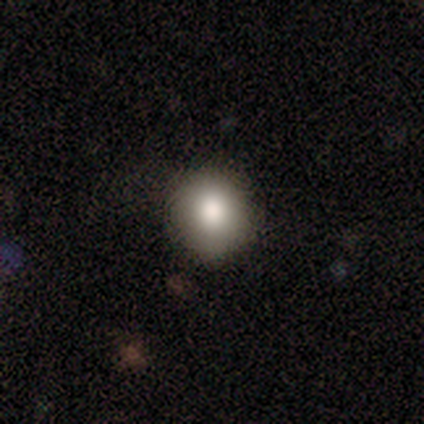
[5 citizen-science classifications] A smooth galaxy with no disk features (80%) that is round (100%). Merging: none (100%).